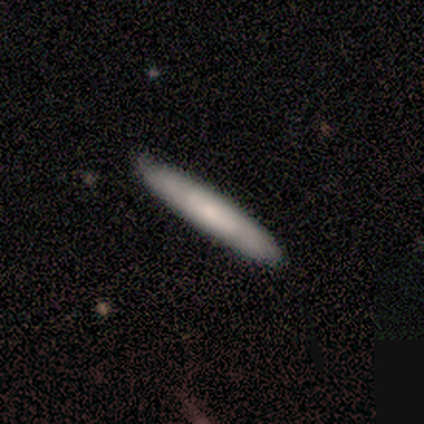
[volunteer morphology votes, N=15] Smooth or featured?
  - smooth: 67% *
  - featured or disk: 33%
  - star or artifact: 0%
How rounded?
  - cigar-shaped: 100% *
  - round: 0%
  - in between: 0%
Merging?
  - none: 80% *
  - minor disturbance: 13%
  - major disturbance: 7%
  - merger: 0%